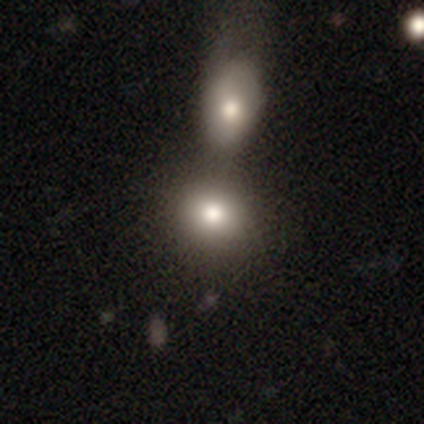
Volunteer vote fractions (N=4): Smooth or featured?
  - smooth: 100% *
  - featured or disk: 0%
  - star or artifact: 0%
How rounded?
  - round: 100% *
  - in between: 0%
  - cigar-shaped: 0%
Merging?
  - merger: 100% *
  - none: 0%
  - minor disturbance: 0%
  - major disturbance: 0%